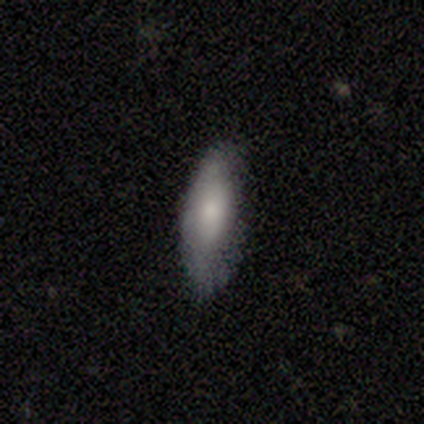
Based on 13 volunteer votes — smooth 69%, featured or disk 23%, star or artifact 8%. Down the decision tree: how rounded — in between (67%); merging — minor disturbance (58%).